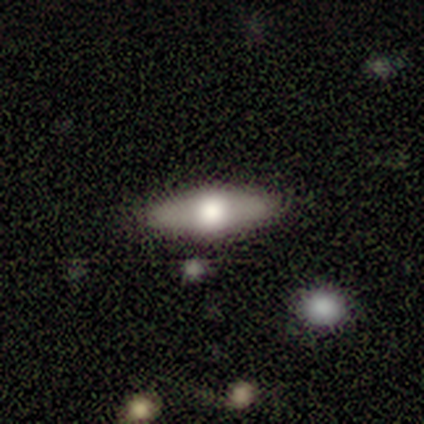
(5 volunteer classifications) This is clearly a smooth galaxy (80%). How rounded: possibly in between (50%, tied with cigar-shaped). Merging: clearly none (100%).